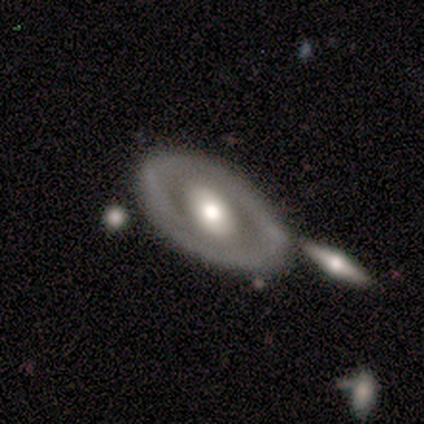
A featured or disk galaxy (100%) with a weak bar (50%, tied with no), 2 (100%) tight (100%) spiral arms (50%, tied with no) and a moderate central bulge (100%).

Vote fractions:
- Smooth or featured? featured or disk: 100% / smooth: 0% / star or artifact: 0%
- Edge-on disk? no: 100% / yes: 0%
- Bar? weak: 50% (tied) / no: 50% (tied) / strong: 0%
- Spiral arms? yes: 50% (tied) / no: 50% (tied)
- Spiral winding? tight: 100% / medium: 0% / loose: 0%
- Spiral arm count? 2: 100% / 1: 0% / 3: 0% / 4: 0% / more than 4: 0% / can't tell: 0%
- Bulge size? moderate: 100% / dominant: 0% / large: 0% / small: 0% / none: 0%
- Merging? none: 100% / minor disturbance: 0% / major disturbance: 0% / merger: 0%